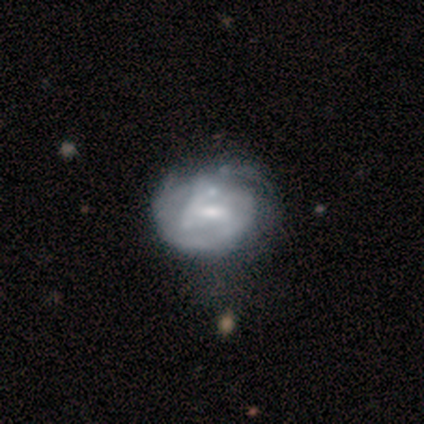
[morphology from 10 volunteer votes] type=featured or disk (60%); edge-on=no (100%); bar=weak (67%); spiral arms=yes (83%); winding=medium (40%, tied with loose); arm count=2 (60%); bulge=small (67%); merging=none (67%).